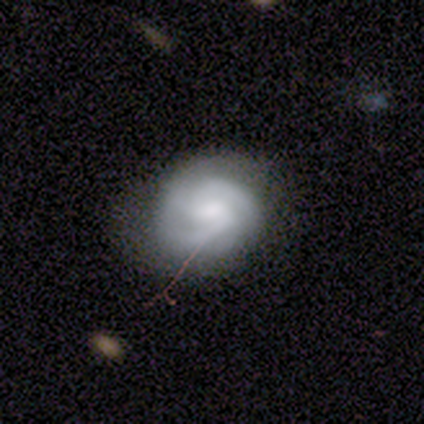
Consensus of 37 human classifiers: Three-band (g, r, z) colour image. It shows a featured or disk galaxy (78%) with a weak bar (52%), 3 (46%) tight (58%) spiral arms (90%) and a moderate central bulge (52%). Merging: none (81%).